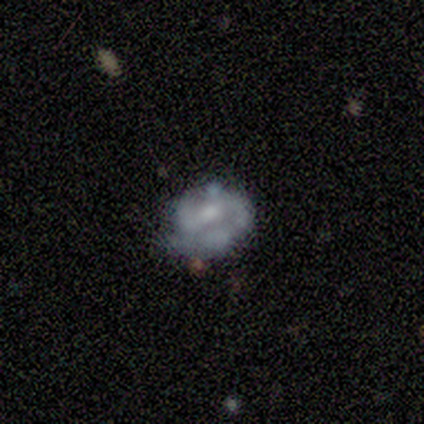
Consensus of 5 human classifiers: featured or disk 80%, smooth 20%, star or artifact 0%. Down the decision tree: edge-on disk — no (75%); bar — strong (67%); spiral arms — yes (100%); spiral arm count — 2 (67%); spiral winding — tight (67%); bulge size — large (33%, tied with moderate and small); merging — minor disturbance (60%).